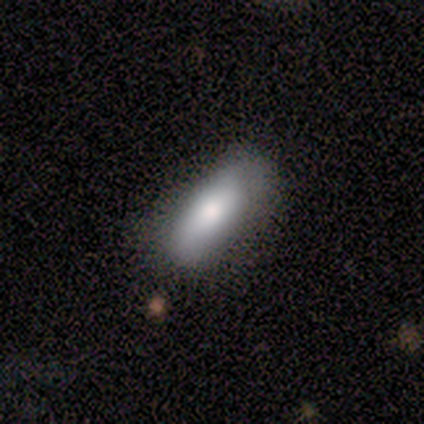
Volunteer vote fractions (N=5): Smooth or featured?
  - smooth: 100% *
  - featured or disk: 0%
  - star or artifact: 0%
How rounded?
  - in between: 100% *
  - round: 0%
  - cigar-shaped: 0%
Merging?
  - none: 100% *
  - minor disturbance: 0%
  - major disturbance: 0%
  - merger: 0%